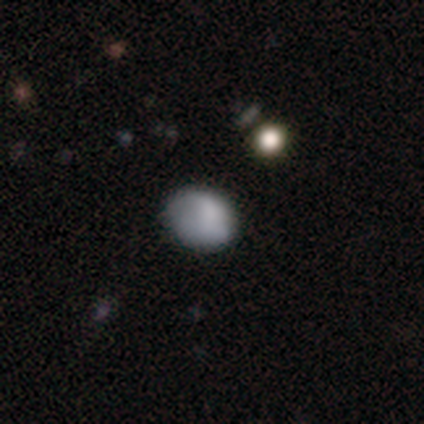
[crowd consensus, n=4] A smooth galaxy with no disk features (75%) that is round (67%).

Vote fractions:
- Smooth or featured? smooth: 75% / featured or disk: 25% / star or artifact: 0%
- How rounded? round: 67% / in between: 33% / cigar-shaped: 0%
- Merging? none: 75% / minor disturbance: 25% / major disturbance: 0% / merger: 0%